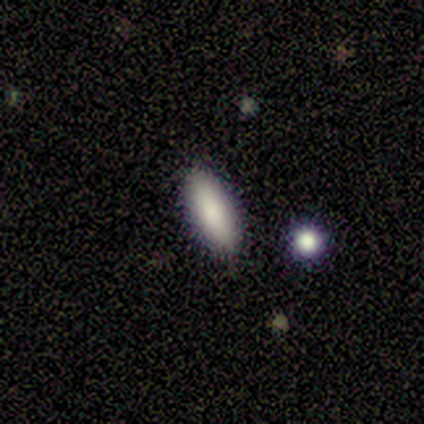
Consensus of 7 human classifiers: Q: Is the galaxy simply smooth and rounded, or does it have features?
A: smooth — 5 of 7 (71%).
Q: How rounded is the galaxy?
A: in between — 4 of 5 (80%).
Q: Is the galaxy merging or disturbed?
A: none — 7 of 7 (100%).